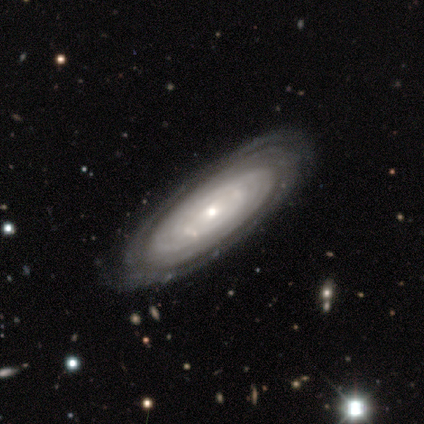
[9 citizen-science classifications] smooth_or_featured: featured or disk (p=0.78) [alt: star or artifact p=0.22]
disk_edge_on: no (p=0.86) [alt: yes p=0.14]
bar: no (p=0.83) [alt: weak p=0.17]
has_spiral_arms: yes (p=1.00)
spiral_winding: tight (p=1.00)
spiral_arm_count: more than 4 (p=0.50) [alt: can't tell p=0.33]
bulge_size: small (p=0.50) [alt: moderate p=0.33]
merging: none (p=0.86) [alt: major disturbance p=0.14]